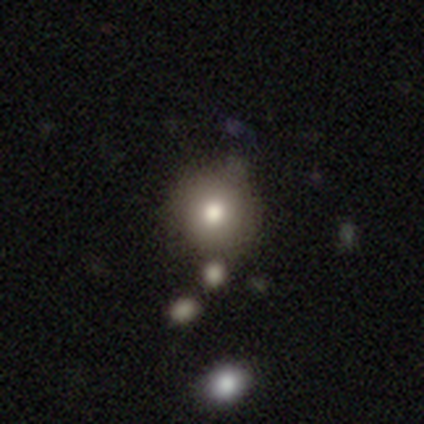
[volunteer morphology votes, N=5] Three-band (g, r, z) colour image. It shows a smooth galaxy with no disk features (80%) that is round (100%). Merging: none (80%).